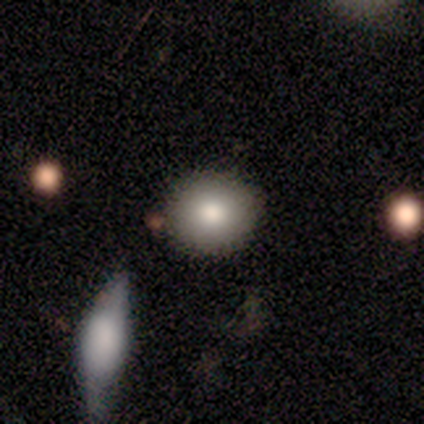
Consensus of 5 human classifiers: Volunteers were most divided on "merging" (2-way tie): none: 40%, minor disturbance: 40%, merger: 20%, major disturbance: 0%. More confident: smooth or featured — smooth (100%); how rounded — round (80%).